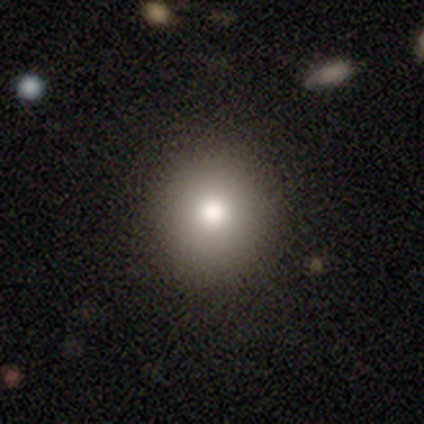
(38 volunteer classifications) Smooth or featured?
  - smooth: 79% *
  - featured or disk: 13%
  - star or artifact: 8%
How rounded?
  - round: 97% *
  - in between: 3%
  - cigar-shaped: 0%
Merging?
  - none: 83% *
  - minor disturbance: 0%
  - major disturbance: 0%
  - merger: 0%